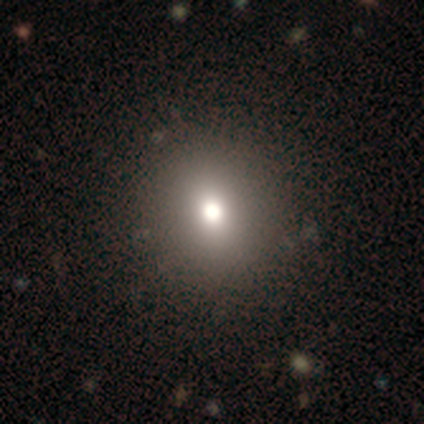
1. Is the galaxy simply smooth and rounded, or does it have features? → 100% smooth, 0% featured or disk, 0% star or artifact.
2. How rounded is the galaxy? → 100% round, 0% in between, 0% cigar-shaped.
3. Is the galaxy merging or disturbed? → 100% none, 0% minor disturbance, 0% major disturbance, 0% merger.